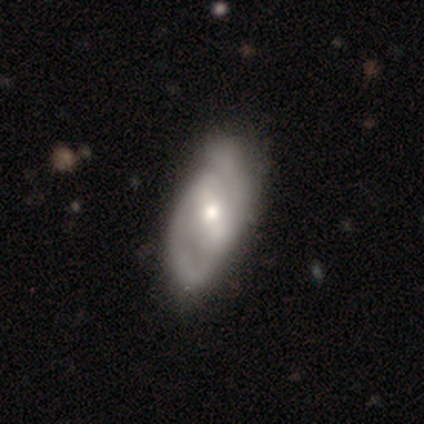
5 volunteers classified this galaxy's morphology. Smooth or featured?
  - featured or disk: 60% *
  - smooth: 40%
  - star or artifact: 0%
Edge-on disk?
  - no: 100% *
  - yes: 0%
Bar?
  - weak: 100% *
  - strong: 0%
  - no: 0%
Spiral arms?
  - yes: 100% *
  - no: 0%
Spiral winding?
  - medium: 67% *
  - tight: 33%
  - loose: 0%
Spiral arm count?
  - 2: 100% *
  - 1: 0%
  - 3: 0%
  - 4: 0%
  - more than 4: 0%
  - can't tell: 0%
Bulge size?
  - moderate: 67% *
  - small: 33%
  - dominant: 0%
  - large: 0%
  - none: 0%
Merging?
  - minor disturbance: 80% *
  - none: 20%
  - major disturbance: 0%
  - merger: 0%